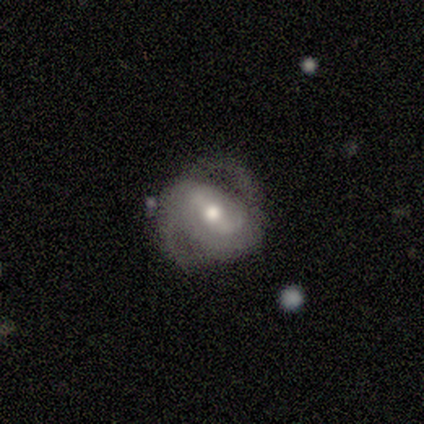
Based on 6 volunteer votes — Overall: featured or disk (100%). Edge-on disk: no (100%). Bar: strong (50%; weak 33%). Spiral arms: yes (67%; no 33%). Spiral arm count: 2 (100%). Spiral winding: medium (75%). Bulge size: moderate (83%). Merging: none (67%; minor disturbance 33%).